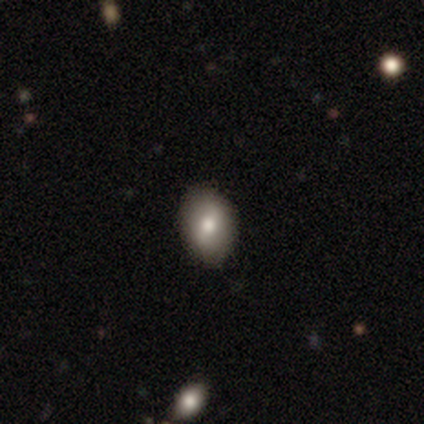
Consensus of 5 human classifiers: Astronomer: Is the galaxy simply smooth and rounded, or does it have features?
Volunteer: smooth — 60%.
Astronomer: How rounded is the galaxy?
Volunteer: round — 33%, tied with in between and cigar-shaped at 33%.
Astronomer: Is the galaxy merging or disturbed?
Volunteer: none — 100%.